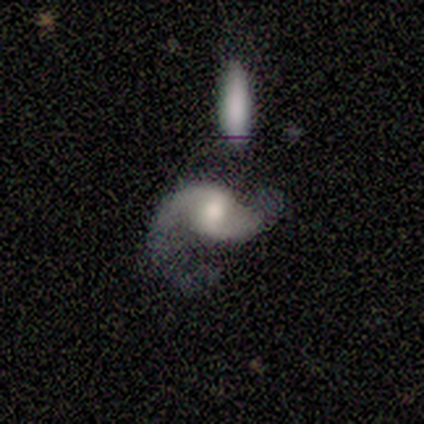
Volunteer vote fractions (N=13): Smooth or featured?
  - featured or disk: 92% *
  - star or artifact: 8%
  - smooth: 0%
Edge-on disk?
  - no: 100% *
  - yes: 0%
Bar?
  - weak: 58% *
  - no: 33%
  - strong: 8%
Spiral arms?
  - yes: 92% *
  - no: 8%
Spiral winding?
  - loose: 73% *
  - medium: 27%
  - tight: 0%
Spiral arm count?
  - 2: 100% *
  - 1: 0%
  - 3: 0%
  - 4: 0%
  - more than 4: 0%
  - can't tell: 0%
Bulge size?
  - moderate: 50% *
  - large: 25%
  - small: 25%
  - dominant: 0%
  - none: 0%
Merging?
  - none: 33% * (tied)
  - merger: 33% * (tied)
  - minor disturbance: 25%
  - major disturbance: 8%